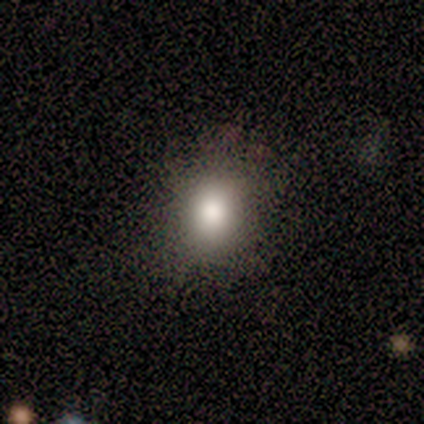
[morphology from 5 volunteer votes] Smooth or featured?
  - smooth: 100% *
  - featured or disk: 0%
  - star or artifact: 0%
How rounded?
  - round: 60% *
  - in between: 40%
  - cigar-shaped: 0%
Merging?
  - none: 100% *
  - minor disturbance: 0%
  - major disturbance: 0%
  - merger: 0%